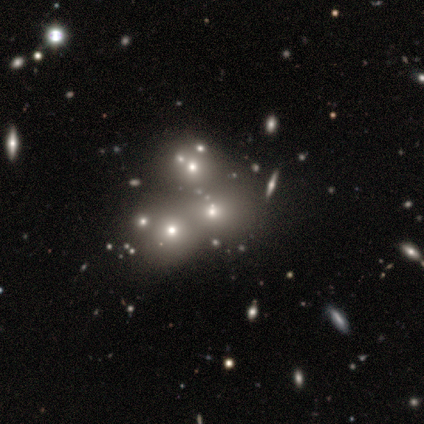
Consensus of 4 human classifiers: This appears to be a smooth galaxy with no disk features (75%) that is round (100%). Merging: none (67%).